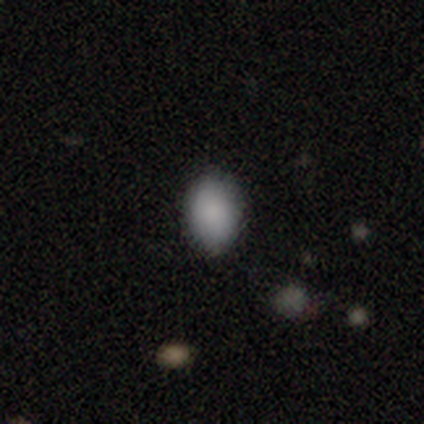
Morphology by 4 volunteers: Smooth or featured? smooth (100%)
How rounded? in between (75%)
Merging? none (100%)